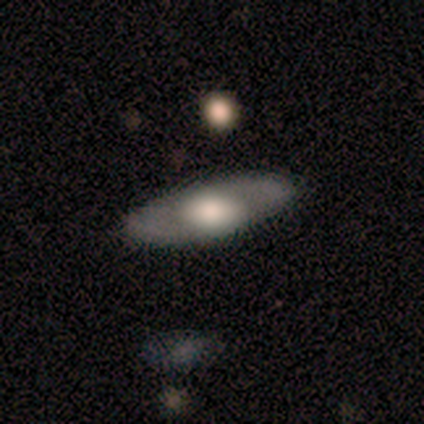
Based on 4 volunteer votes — Smooth or featured: smooth — 50% (tied with featured or disk — 50%)
How rounded: in between — 100%
Merging: none — 100%